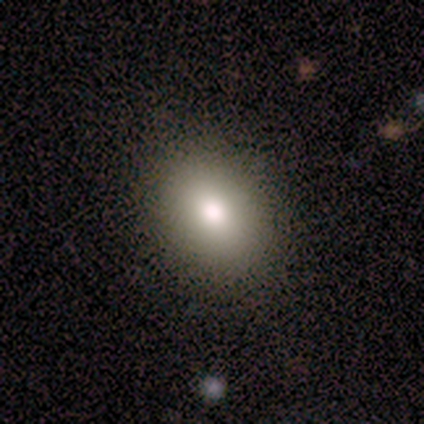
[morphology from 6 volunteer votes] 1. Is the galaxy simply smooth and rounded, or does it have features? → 100% smooth, 0% featured or disk, 0% star or artifact.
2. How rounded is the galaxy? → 67% in between, 33% round, 0% cigar-shaped.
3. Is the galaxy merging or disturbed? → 100% none, 0% minor disturbance, 0% major disturbance, 0% merger.